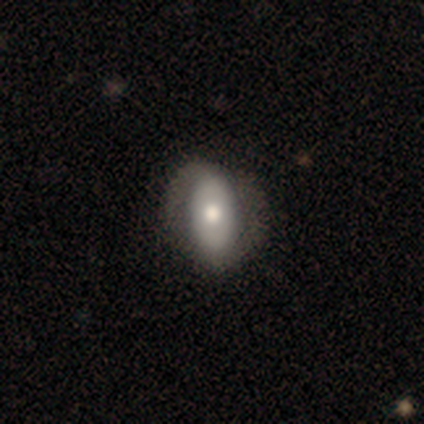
Overall: featured or disk (68%; smooth 32%). Edge-on disk: no (96%). Bar: no (76%). Spiral arms: yes (80%). Spiral arm count: 2 (95%). Spiral winding: tight (40%; medium 30%). Bulge size: moderate (64%). Merging: none (55%; minor disturbance 24%).